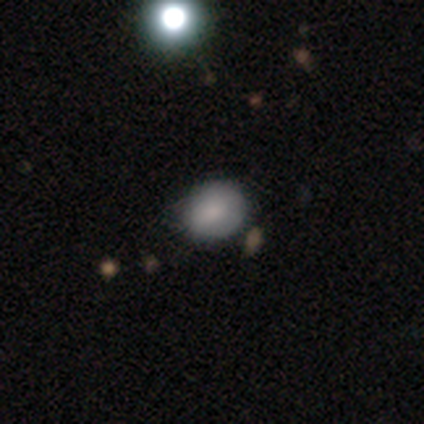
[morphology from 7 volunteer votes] Smooth or featured?
  - smooth: 71% *
  - featured or disk: 29%
  - star or artifact: 0%
How rounded?
  - in between: 60% *
  - round: 40%
  - cigar-shaped: 0%
Merging?
  - none: 86% *
  - merger: 14%
  - minor disturbance: 0%
  - major disturbance: 0%